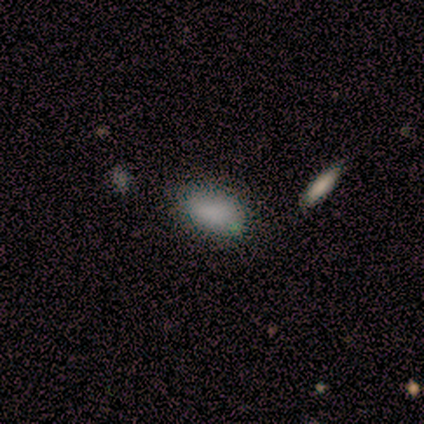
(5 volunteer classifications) A smooth galaxy with no disk features (100%) that is in between round and cigar-shaped (100%). Merging: none (80%).